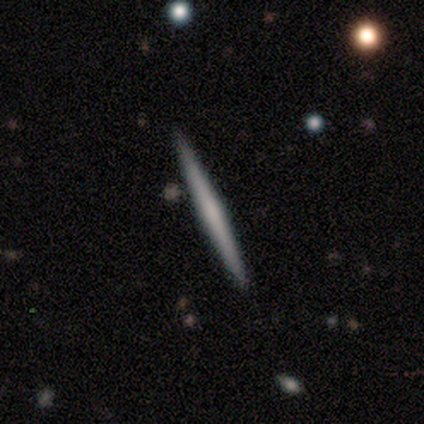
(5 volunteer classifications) A featured or disk galaxy (80%) viewed edge-on (100%) with a boxy central bulge (50%).

Vote fractions:
- Smooth or featured? featured or disk: 80% / smooth: 20% / star or artifact: 0%
- Edge-on disk? yes: 100% / no: 0%
- Edge-on bulge? boxy: 50% / none: 25% / rounded: 25%
- Merging? none: 80% / minor disturbance: 20% / major disturbance: 0% / merger: 0%